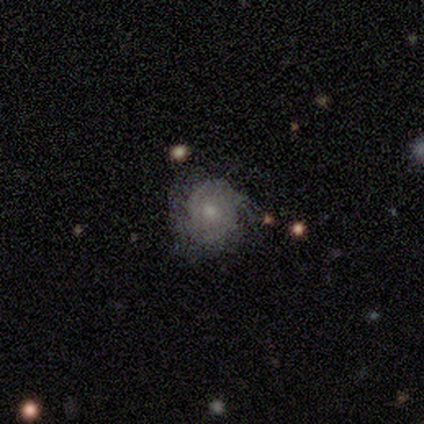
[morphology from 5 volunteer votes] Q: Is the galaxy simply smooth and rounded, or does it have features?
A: featured or disk — 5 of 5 (100%).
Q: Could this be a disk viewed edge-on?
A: no — 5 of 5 (100%).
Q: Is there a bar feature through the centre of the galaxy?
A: no — 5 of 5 (100%).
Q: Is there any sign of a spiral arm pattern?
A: no — 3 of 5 (60%).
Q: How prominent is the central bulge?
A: small — 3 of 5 (60%).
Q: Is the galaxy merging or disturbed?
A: none — 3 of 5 (60%).